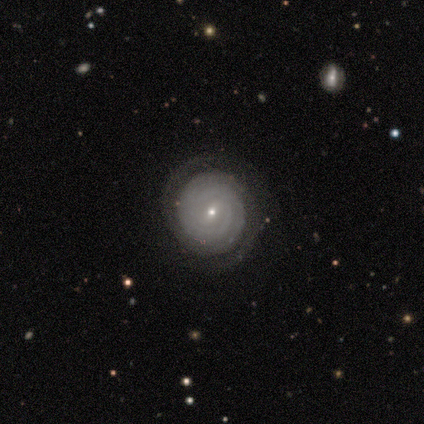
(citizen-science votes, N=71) Overall: featured or disk (90%). Edge-on disk: no (95%). Bar: weak (56%; no 34%). Spiral arms: yes (97%). Spiral arm count: 2 (47%; can't tell 25%). Spiral winding: tight (90%). Bulge size: small (82%). Merging: none (81%).